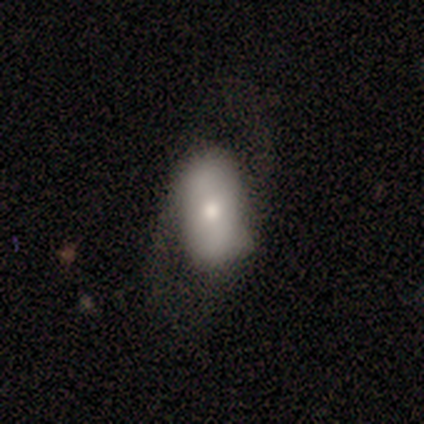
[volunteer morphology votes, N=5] This appears to be a smooth galaxy with no disk features (60%) that is in between round and cigar-shaped (67%). Merging: none (80%).